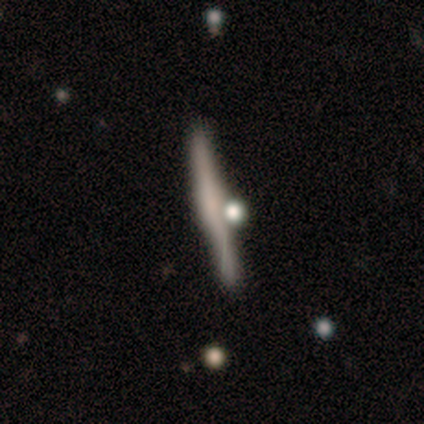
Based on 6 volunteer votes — Morphology: type=smooth (50%, tied with featured or disk); roundness=cigar-shaped (67%); merging=none (83%).